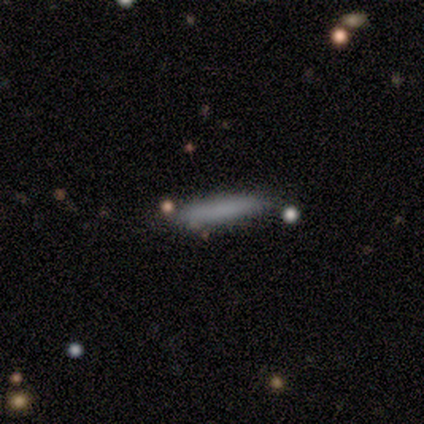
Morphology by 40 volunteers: smooth 92%, featured or disk 5%, star or artifact 2%. Down the decision tree: how rounded — cigar-shaped (97%); merging — none (85%).